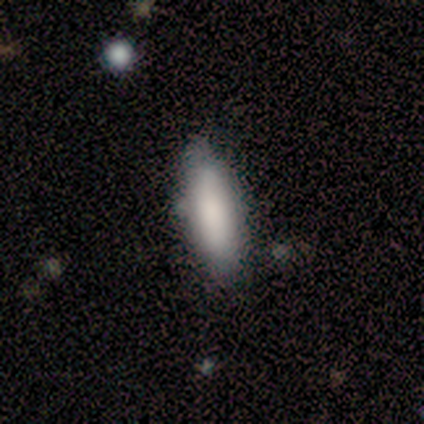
Volunteers were most divided on "merging" (2-way tie): none: 40%, minor disturbance: 40%, major disturbance: 20%, merger: 0%. More confident: smooth or featured — smooth (100%); how rounded — in between (80%).